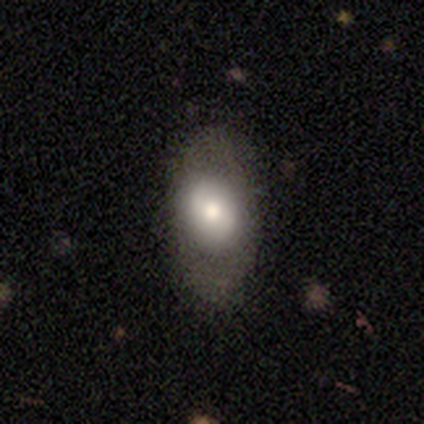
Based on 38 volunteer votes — A smooth galaxy with no disk features (61%) that is in between round and cigar-shaped (91%).

Vote fractions:
- Smooth or featured? smooth: 61% / featured or disk: 29% / star or artifact: 11%
- How rounded? in between: 91% / round: 9% / cigar-shaped: 0%
- Merging? none: 79% / minor disturbance: 12% / major disturbance: 9% / merger: 0%